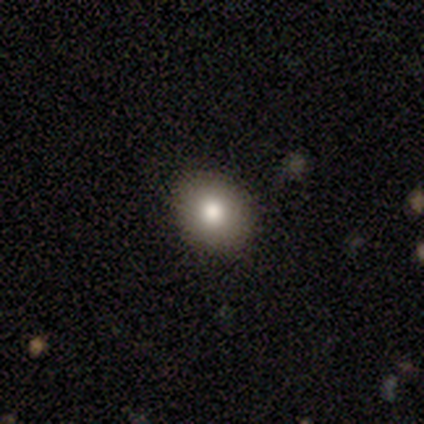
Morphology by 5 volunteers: Smooth or featured? 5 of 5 (100%) said smooth. How rounded? 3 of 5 (60%) said in between. Merging? 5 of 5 (100%) said none.